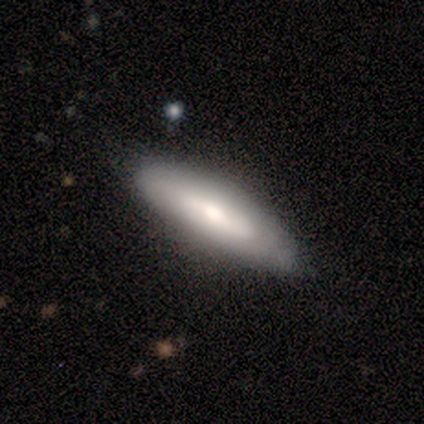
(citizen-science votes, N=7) smooth 71%, featured or disk 29%, star or artifact 0%. Down the decision tree: how rounded — in between (80%); merging — none (86%).